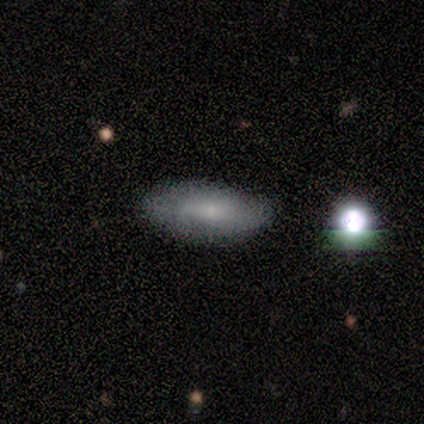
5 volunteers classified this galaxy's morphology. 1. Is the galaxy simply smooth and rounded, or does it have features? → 80% smooth, 20% star or artifact, 0% featured or disk.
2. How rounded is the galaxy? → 75% in between, 25% cigar-shaped, 0% round.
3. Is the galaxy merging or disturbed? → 100% none, 0% minor disturbance, 0% major disturbance, 0% merger.